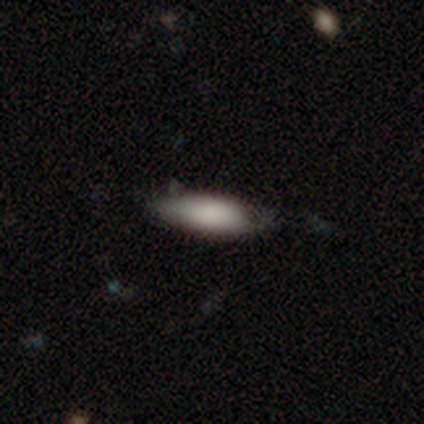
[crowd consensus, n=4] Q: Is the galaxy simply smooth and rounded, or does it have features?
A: smooth — 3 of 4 (75%).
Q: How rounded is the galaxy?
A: in between — 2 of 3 (67%).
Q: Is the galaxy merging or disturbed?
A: none — 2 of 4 (50%, tied with minor disturbance).